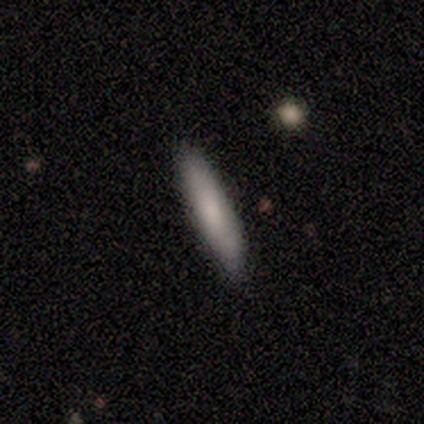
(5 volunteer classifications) Smooth or featured: smooth — 80% (featured or disk — 20%)
How rounded: cigar-shaped — 100%
Merging: none — 100%